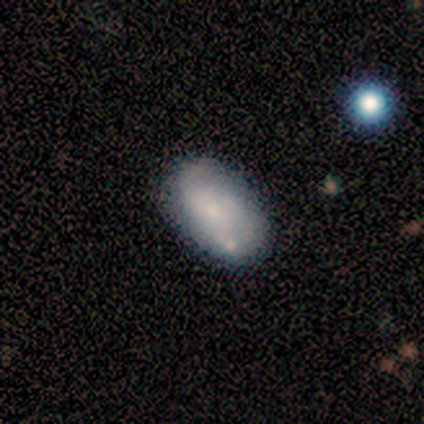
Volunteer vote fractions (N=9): Smooth or featured? 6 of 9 (67%) said smooth. How rounded? 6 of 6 (100%) said in between. Merging? 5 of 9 (56%) said none.